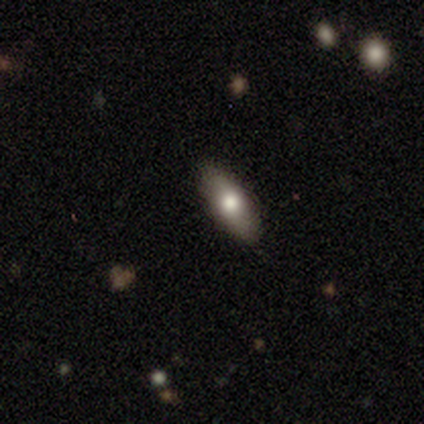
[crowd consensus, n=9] smooth 78%, featured or disk 22%, star or artifact 0%. Down the decision tree: how rounded — in between (57%); merging — none (100%).